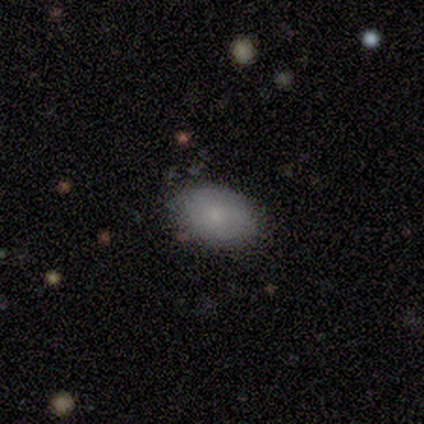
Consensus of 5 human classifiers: smooth_or_featured: smooth (p=0.80) [alt: featured or disk p=0.20]
how_rounded: round (p=0.50) [tied with: in between p=0.50]
merging: none (p=1.00)